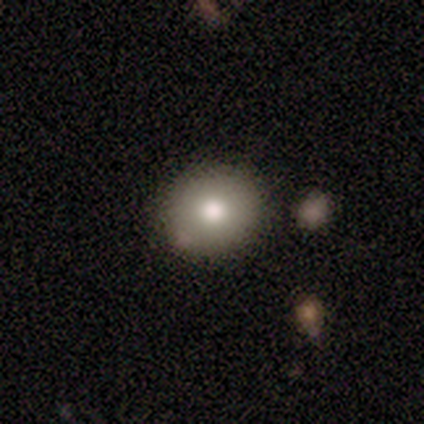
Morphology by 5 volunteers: Smooth or featured?
  - smooth: 80% *
  - featured or disk: 20%
  - star or artifact: 0%
How rounded?
  - round: 100% *
  - in between: 0%
  - cigar-shaped: 0%
Merging?
  - none: 80% *
  - minor disturbance: 20%
  - major disturbance: 0%
  - merger: 0%